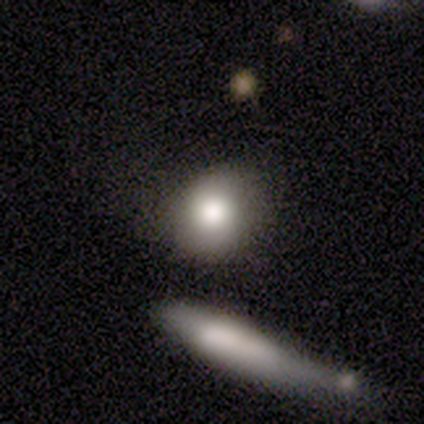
smooth-or-featured: smooth: 75% | featured or disk: 25% | star or artifact: 0%
  how-rounded: round: 67% | in between: 33% | cigar-shaped: 0%
  merging: none: 75% | merger: 25% | minor disturbance: 0% | major disturbance: 0%